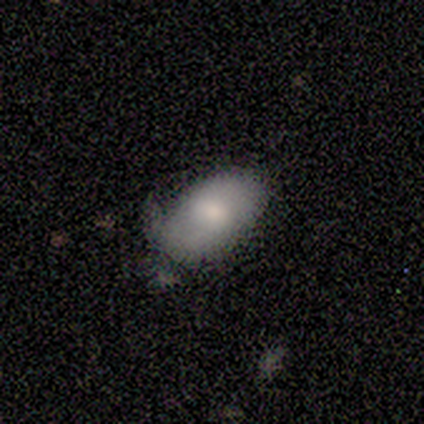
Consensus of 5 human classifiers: smooth_or_featured: smooth (p=1.00)
how_rounded: in between (p=1.00)
merging: minor disturbance (p=0.60) [alt: none p=0.40]